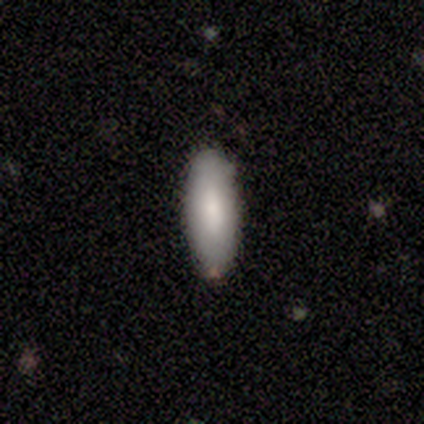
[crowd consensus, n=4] smooth-or-featured: smooth: 100% | featured or disk: 0% | star or artifact: 0%
  how-rounded: in between: 75% | cigar-shaped: 25% | round: 0%
  merging: none: 100% | minor disturbance: 0% | major disturbance: 0% | merger: 0%